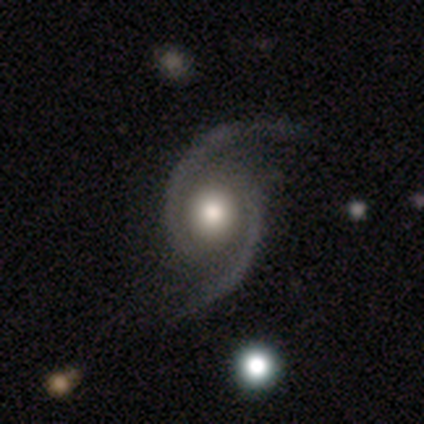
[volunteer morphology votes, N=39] featured or disk 97%, smooth 3%, star or artifact 0%. Down the decision tree: edge-on disk — no (95%); bar — no (61%); spiral arms — yes (94%); spiral arm count — 2 (100%); spiral winding — medium (47%); bulge size — moderate (50%); merging — none (79%).